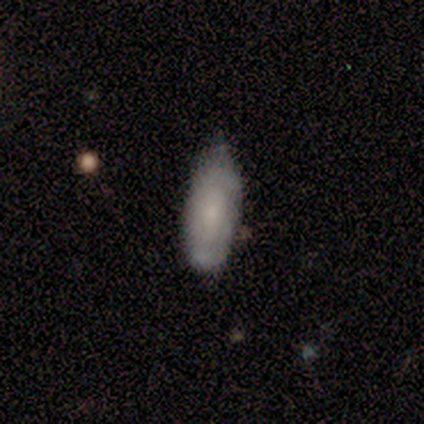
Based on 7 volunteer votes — This is marginally a smooth galaxy (43%, tied with featured or disk). How rounded: clearly in between (100%). Merging: possibly none (50%, tied with minor disturbance).